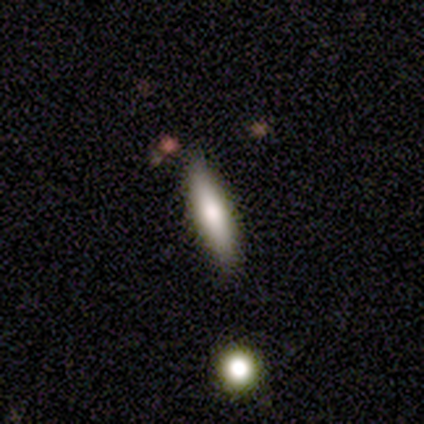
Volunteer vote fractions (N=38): A smooth galaxy with no disk features (58%) that is cigar-shaped (82%).

Vote fractions:
- Smooth or featured? smooth: 58% / featured or disk: 34% / star or artifact: 8%
- How rounded? cigar-shaped: 82% / in between: 14% / round: 5%
- Merging? none: 80% / minor disturbance: 14% / major disturbance: 3% / merger: 3%